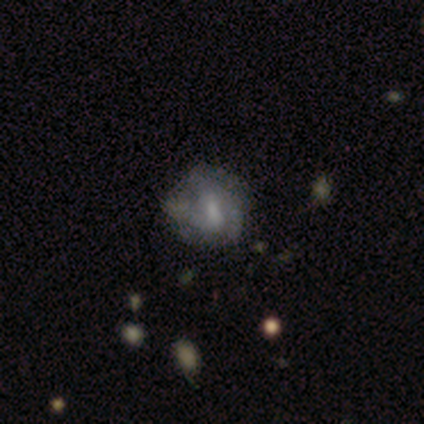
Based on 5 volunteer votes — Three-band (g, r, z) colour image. It shows a smooth galaxy with no disk features (60%) that is round (100%). Merging: none (60%).